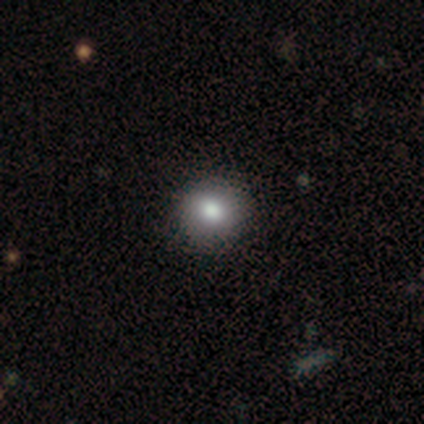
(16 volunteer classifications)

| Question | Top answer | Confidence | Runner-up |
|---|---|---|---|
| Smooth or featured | smooth | 69% | star or artifact (19%) |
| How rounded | round | 82% | in between (18%) |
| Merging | none | 92% | merger (8%) |